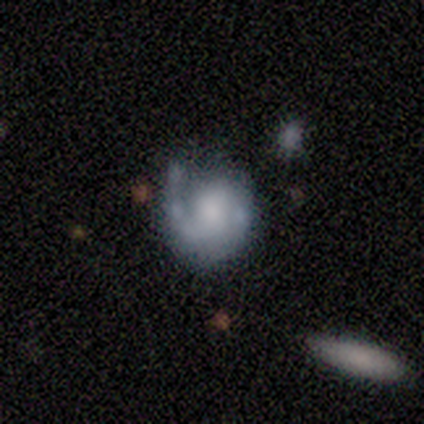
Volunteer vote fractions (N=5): Overall: featured or disk (100%). Edge-on disk: no (100%). Bar: no (60%; weak 40%). Spiral arms: yes (80%). Spiral arm count: 1 (75%). Spiral winding: medium (75%). Bulge size: small (60%; none 40%). Merging: none (80%).